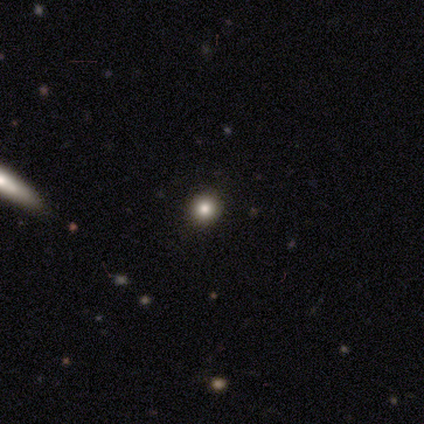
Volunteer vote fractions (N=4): Smooth or featured?
  - smooth: 75% *
  - star or artifact: 25%
  - featured or disk: 0%
How rounded?
  - round: 67% *
  - in between: 33%
  - cigar-shaped: 0%
Merging?
  - none: 67% *
  - minor disturbance: 33%
  - major disturbance: 0%
  - merger: 0%